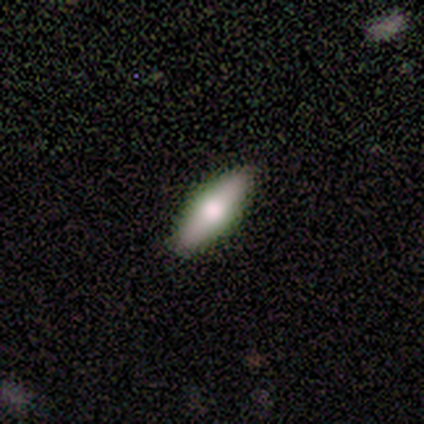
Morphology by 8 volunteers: Overall: smooth (50%, tied with featured or disk). How rounded: in between (50%, tied with cigar-shaped). Merging: none (88%).